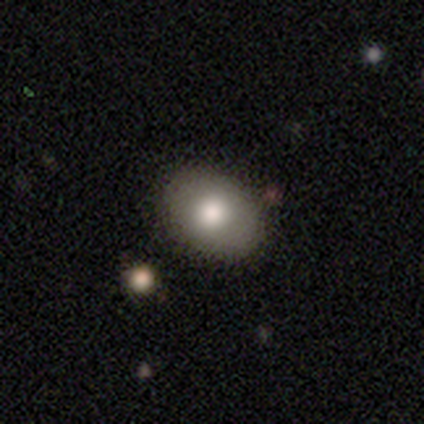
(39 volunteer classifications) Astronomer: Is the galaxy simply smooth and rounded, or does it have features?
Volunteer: smooth — 74%.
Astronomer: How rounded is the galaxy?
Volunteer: in between — 90%.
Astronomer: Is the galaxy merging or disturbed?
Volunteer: none — 68%.